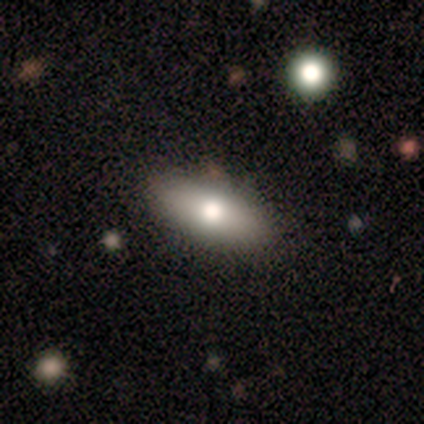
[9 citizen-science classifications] A smooth galaxy with no disk features (89%) that is in between round and cigar-shaped (88%). Merging: none (89%).